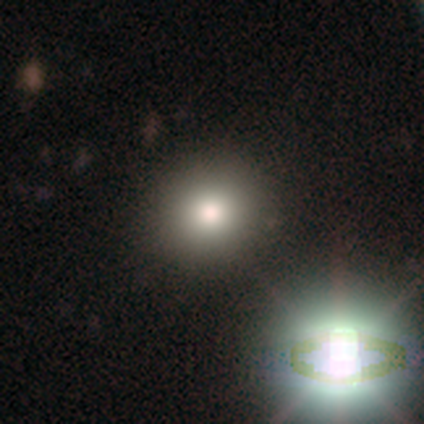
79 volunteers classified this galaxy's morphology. smooth-or-featured: smooth: 70% | star or artifact: 19% | featured or disk: 11%
  how-rounded: round: 76% | in between: 22% | cigar-shaped: 2%
  merging: none: 48% | merger: 6% | minor disturbance: 3% | major disturbance: 0%